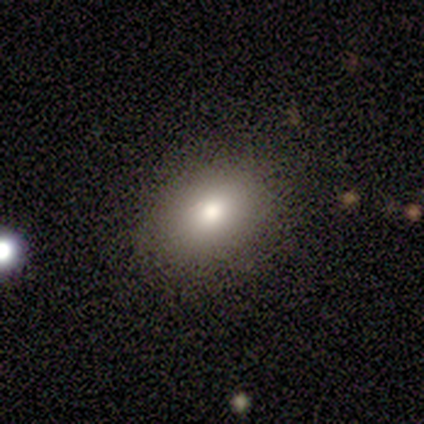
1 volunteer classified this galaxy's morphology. smooth_or_featured: smooth (p=1.00)
how_rounded: in between (p=1.00)
merging: minor disturbance (p=1.00)